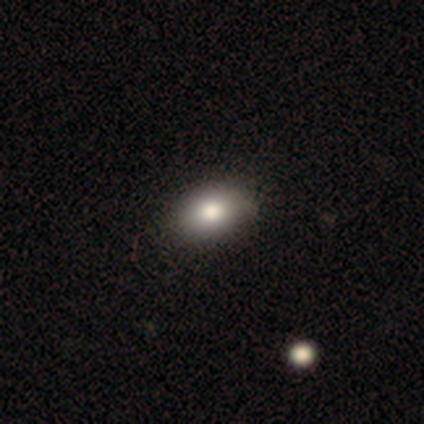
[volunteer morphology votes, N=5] A smooth galaxy with no disk features (60%) that is in between round and cigar-shaped (100%).

Vote fractions:
- Smooth or featured? smooth: 60% / featured or disk: 20% / star or artifact: 20%
- How rounded? in between: 100% / round: 0% / cigar-shaped: 0%
- Merging? none: 100% / minor disturbance: 0% / major disturbance: 0% / merger: 0%